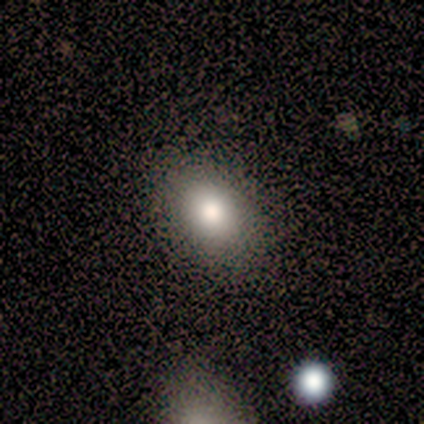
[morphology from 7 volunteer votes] Smooth or featured?
  - smooth: 86% *
  - featured or disk: 14%
  - star or artifact: 0%
How rounded?
  - in between: 83% *
  - round: 17%
  - cigar-shaped: 0%
Merging?
  - none: 86% *
  - minor disturbance: 14%
  - major disturbance: 0%
  - merger: 0%